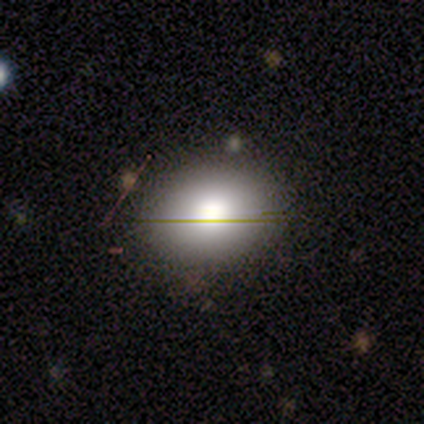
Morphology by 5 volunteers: Volunteers were most divided on "smooth or featured": smooth: 60%, featured or disk: 40%, star or artifact: 0%. More confident: merging — none (80%); how rounded — in between (67%).